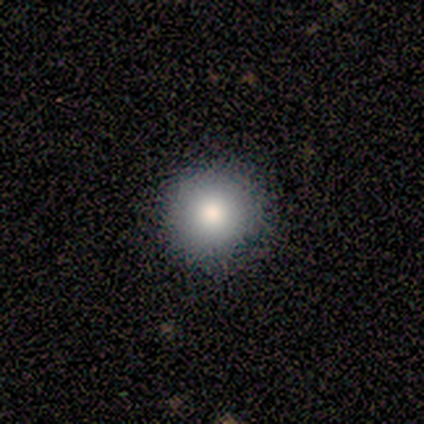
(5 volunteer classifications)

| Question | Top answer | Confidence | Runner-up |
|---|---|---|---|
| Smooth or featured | smooth | 40% | tied: featured or disk (40%) |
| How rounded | round | 100% | — |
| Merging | none | 75% | minor disturbance (25%) |